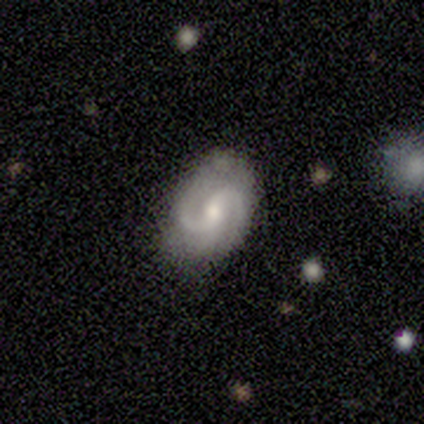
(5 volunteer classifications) Smooth or featured?
  - featured or disk: 60% *
  - smooth: 40%
  - star or artifact: 0%
Edge-on disk?
  - no: 100% *
  - yes: 0%
Bar?
  - weak: 100% *
  - strong: 0%
  - no: 0%
Spiral arms?
  - yes: 100% *
  - no: 0%
Spiral winding?
  - medium: 100% *
  - tight: 0%
  - loose: 0%
Spiral arm count?
  - 2: 100% *
  - 1: 0%
  - 3: 0%
  - 4: 0%
  - more than 4: 0%
  - can't tell: 0%
Bulge size?
  - moderate: 67% *
  - small: 33%
  - dominant: 0%
  - large: 0%
  - none: 0%
Merging?
  - none: 60% *
  - minor disturbance: 40%
  - major disturbance: 0%
  - merger: 0%